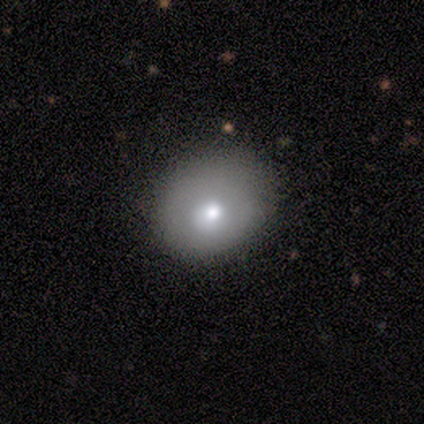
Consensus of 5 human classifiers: A smooth galaxy with no disk features (100%) that is round (60%). Merging: none (80%).